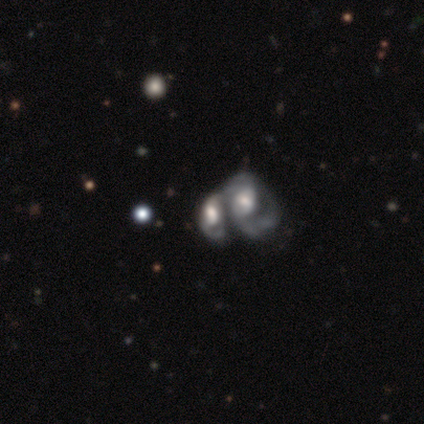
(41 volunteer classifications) Smooth or featured?
  - featured or disk: 73% *
  - smooth: 17%
  - star or artifact: 10%
Edge-on disk?
  - no: 97% *
  - yes: 3%
Bar?
  - no: 59% *
  - weak: 38%
  - strong: 3%
Spiral arms?
  - yes: 83% *
  - no: 17%
Spiral winding?
  - medium: 50% *
  - tight: 29%
  - loose: 21%
Spiral arm count?
  - 2: 50% *
  - 1: 25%
  - can't tell: 25%
  - 3: 0%
  - 4: 0%
  - more than 4: 0%
Bulge size?
  - moderate: 41% *
  - large: 38%
  - dominant: 14%
  - small: 7%
  - none: 0%
Merging?
  - merger: 78% *
  - none: 8%
  - minor disturbance: 0%
  - major disturbance: 0%